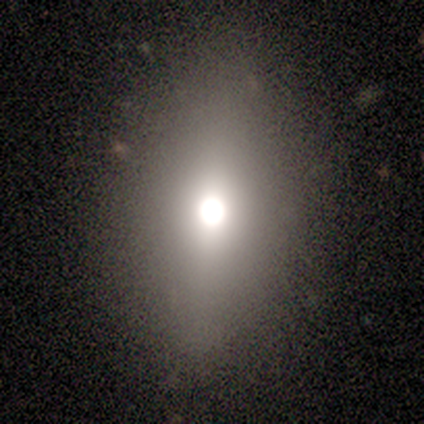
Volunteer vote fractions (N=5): Volunteers were most divided on "smooth or featured" (2-way tie): smooth: 40%, star or artifact: 40%, featured or disk: 20%; "how rounded" (2-way tie): round: 50%, in between: 50%, cigar-shaped: 0%. More confident: merging — none (100%).